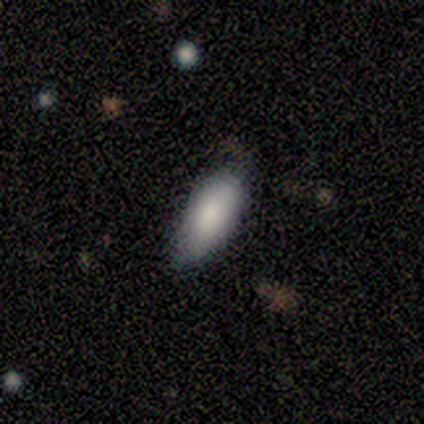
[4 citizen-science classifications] Overall: smooth (100%). How rounded: in between (100%). Merging: none (75%).